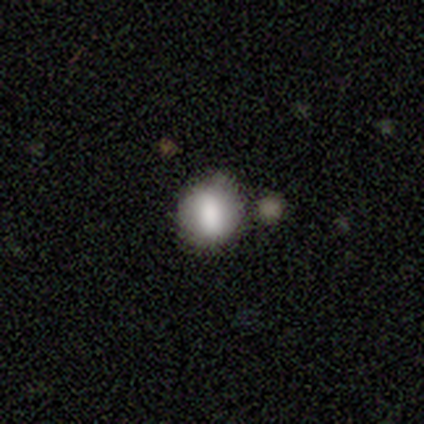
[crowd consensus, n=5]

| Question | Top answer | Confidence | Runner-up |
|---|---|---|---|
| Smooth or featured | smooth | 60% | featured or disk (40%) |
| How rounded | round | 100% | — |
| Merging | none | 60% | minor disturbance (40%) |